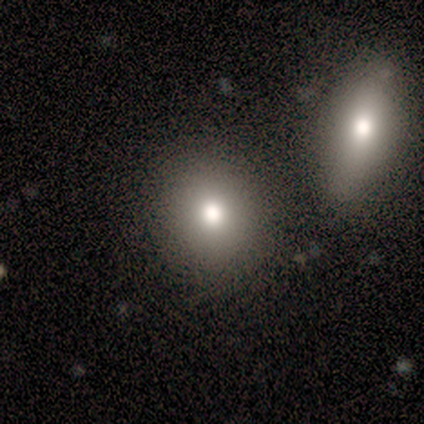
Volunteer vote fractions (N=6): Smooth or featured? 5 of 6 (83%) said smooth. How rounded? 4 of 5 (80%) said round. Merging? 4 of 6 (67%) said none.